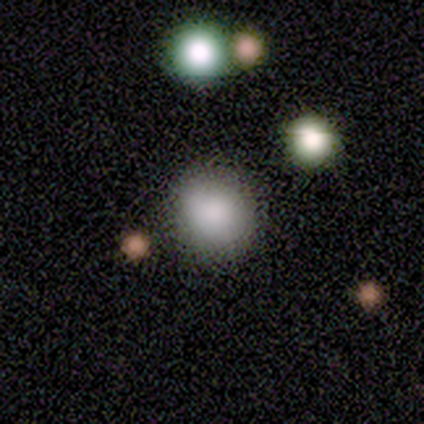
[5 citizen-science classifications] Volunteers were most divided on "how rounded": round: 75%, in between: 25%, cigar-shaped: 0%. More confident: smooth or featured — smooth (80%); merging — none (75%).